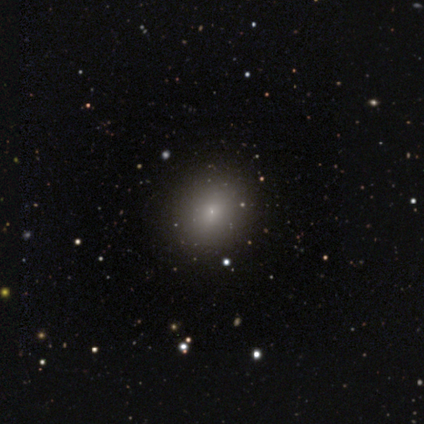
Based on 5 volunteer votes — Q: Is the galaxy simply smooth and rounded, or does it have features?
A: smooth — 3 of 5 (60%).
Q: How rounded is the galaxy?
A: in between — 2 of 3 (67%).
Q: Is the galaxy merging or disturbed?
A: none — 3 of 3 (100%).